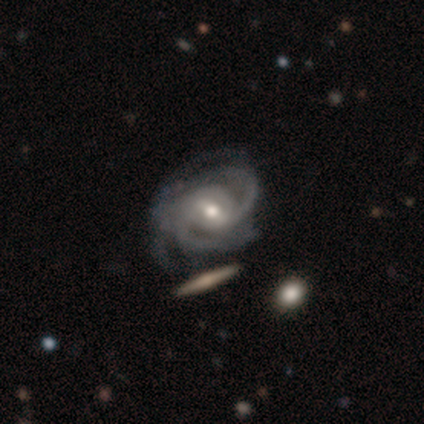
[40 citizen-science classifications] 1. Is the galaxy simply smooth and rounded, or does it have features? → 95% featured or disk, 2% smooth, 2% star or artifact.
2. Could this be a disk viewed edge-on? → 95% no, 5% yes.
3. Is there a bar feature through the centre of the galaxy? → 64% weak, 19% strong, 17% no.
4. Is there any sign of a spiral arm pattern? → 100% yes, 0% no.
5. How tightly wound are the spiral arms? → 47% tight, 44% medium, 8% loose.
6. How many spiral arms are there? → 53% 3, 31% 2, 11% 4, 6% can't tell, 0% 1, 0% more than 4.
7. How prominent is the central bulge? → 72% moderate, 22% small, 3% large, 3% none, 0% dominant.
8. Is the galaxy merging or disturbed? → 41% none, 23% minor disturbance, 13% major disturbance, 0% merger.